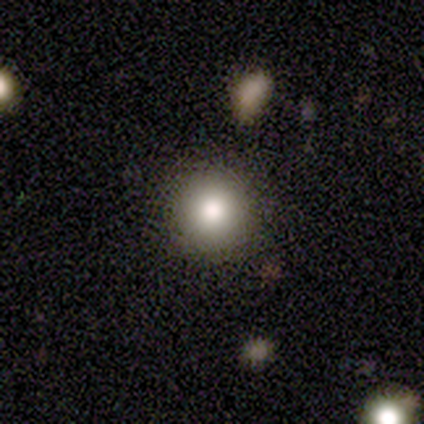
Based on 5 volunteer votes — Overall: smooth (60%; star or artifact 40%). How rounded: round (100%). Merging: none (100%).